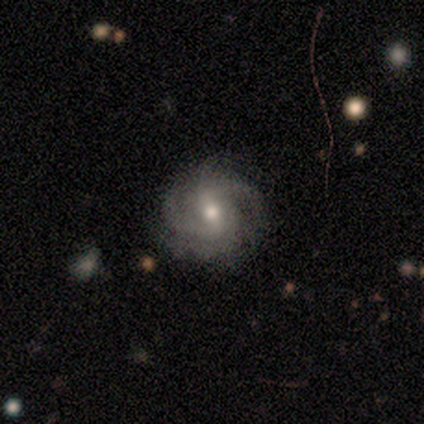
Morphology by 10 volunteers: Overall: featured or disk (90%). Edge-on disk: no (100%). Bar: weak (56%; no 33%). Spiral arms: yes (100%). Spiral arm count: 3 (44%; 2 33%). Spiral winding: tight (56%; medium 44%). Bulge size: moderate (89%). Merging: none (80%).